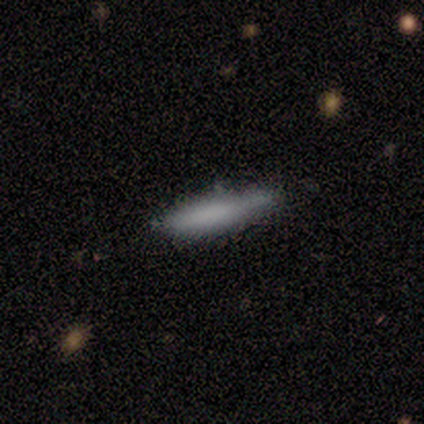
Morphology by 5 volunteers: smooth-or-featured: smooth: 100% | featured or disk: 0% | star or artifact: 0%
  how-rounded: cigar-shaped: 100% | round: 0% | in between: 0%
  merging: none: 100% | minor disturbance: 0% | major disturbance: 0% | merger: 0%